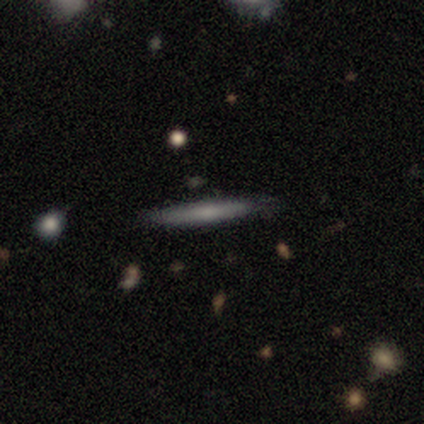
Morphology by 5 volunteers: Smooth or featured: smooth — 60% (featured or disk — 40%)
How rounded: cigar-shaped — 100%
Merging: none — 100%